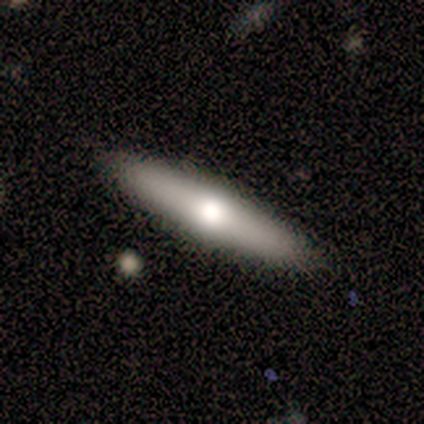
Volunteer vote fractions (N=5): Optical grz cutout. It shows a smooth galaxy with no disk features (60%) that is cigar-shaped (100%). Merging: none (100%).